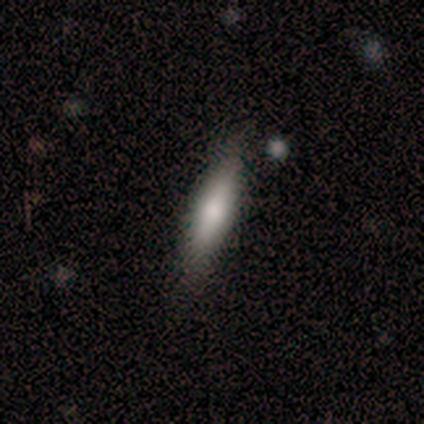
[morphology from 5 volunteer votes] smooth 60%, featured or disk 20%, star or artifact 20%. Down the decision tree: how rounded — cigar-shaped (67%); merging — minor disturbance (50%).